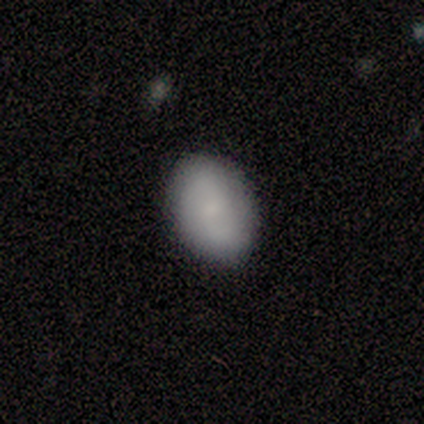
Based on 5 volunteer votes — smooth_or_featured: smooth (p=1.00)
how_rounded: in between (p=0.80) [alt: round p=0.20]
merging: none (p=0.80) [alt: minor disturbance p=0.20]